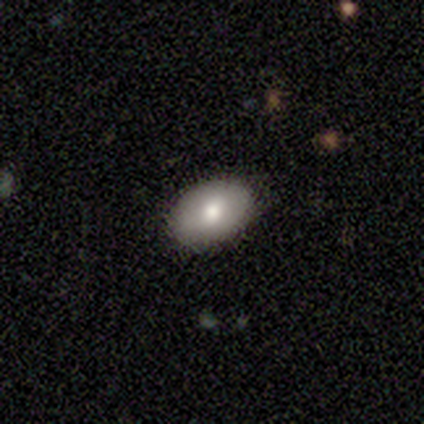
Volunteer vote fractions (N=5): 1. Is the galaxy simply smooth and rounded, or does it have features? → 100% smooth, 0% featured or disk, 0% star or artifact.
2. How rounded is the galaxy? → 100% in between, 0% round, 0% cigar-shaped.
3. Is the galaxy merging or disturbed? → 100% none, 0% minor disturbance, 0% major disturbance, 0% merger.